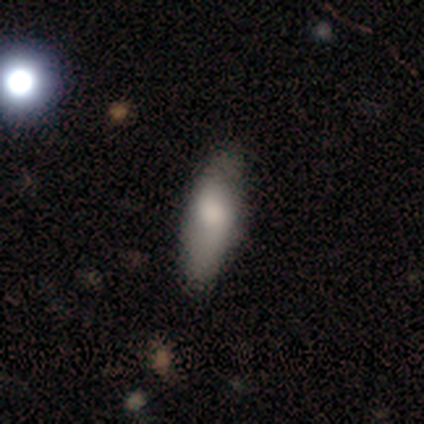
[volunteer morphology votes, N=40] A smooth galaxy with no disk features (80%) that is in between round and cigar-shaped (50%, tied with cigar-shaped). Merging: none (83%).